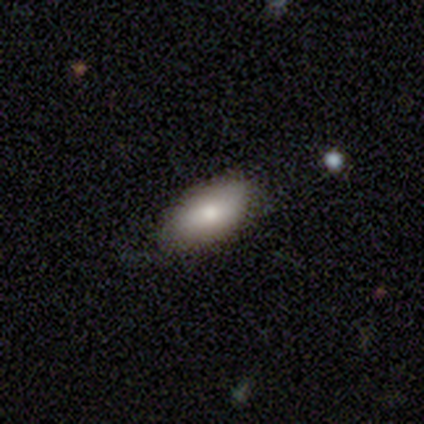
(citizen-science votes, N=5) This is clearly a smooth galaxy (80%). How rounded: clearly in between (100%). Merging: clearly none (100%).